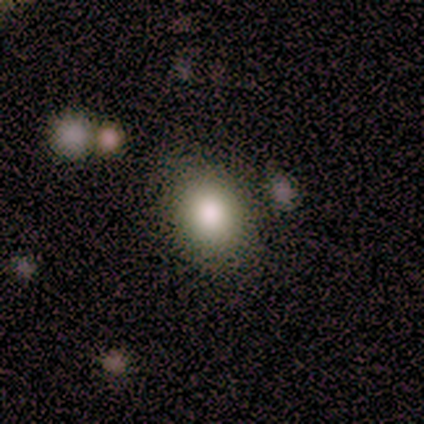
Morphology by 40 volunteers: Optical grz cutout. It shows a smooth galaxy with no disk features (75%) that is round (53%). Merging: none (77%).